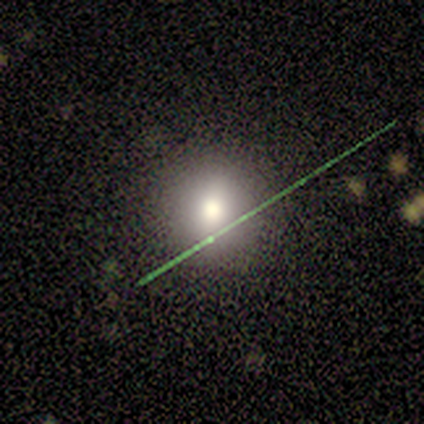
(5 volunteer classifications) smooth-or-featured: smooth: 60% | featured or disk: 20% | star or artifact: 20%
  how-rounded: round: 100% | in between: 0% | cigar-shaped: 0%
  merging: none: 100% | minor disturbance: 0% | major disturbance: 0% | merger: 0%